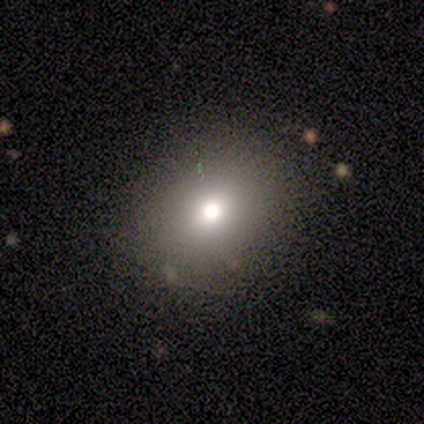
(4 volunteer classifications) Smooth or featured?
  - smooth: 75% *
  - star or artifact: 25%
  - featured or disk: 0%
How rounded?
  - round: 100% *
  - in between: 0%
  - cigar-shaped: 0%
Merging?
  - none: 100% *
  - minor disturbance: 0%
  - major disturbance: 0%
  - merger: 0%